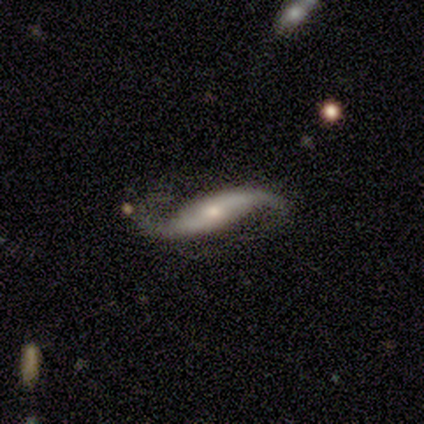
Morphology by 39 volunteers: Q: Smooth or featured?
A: featured or disk (87%); runner-up: star or artifact (8%)
Q: Edge-on disk?
A: no (94%); runner-up: yes (6%)
Q: Bar?
A: no (59%); runner-up: weak (22%)
Q: Spiral arms?
A: yes (94%); runner-up: no (6%)
Q: Spiral winding?
A: loose (90%); runner-up: medium (10%)
Q: Spiral arm count?
A: 2 (93%); runner-up: 1 (3%)
Q: Bulge size?
A: small (62%); runner-up: moderate (31%)
Q: Merging?
A: none (81%); runner-up: minor disturbance (11%)